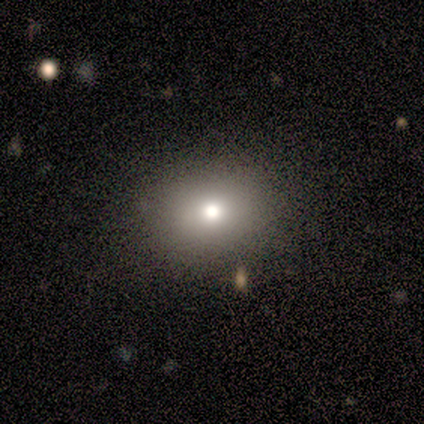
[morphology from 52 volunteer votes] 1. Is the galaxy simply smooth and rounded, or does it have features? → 71% smooth, 17% featured or disk, 12% star or artifact.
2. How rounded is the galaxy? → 57% in between, 43% round, 0% cigar-shaped.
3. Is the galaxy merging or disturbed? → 87% none, 7% minor disturbance, 4% major disturbance, 2% merger.